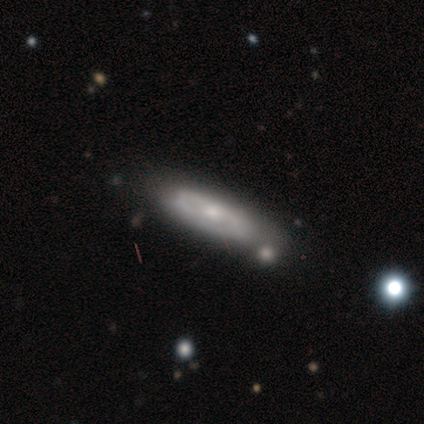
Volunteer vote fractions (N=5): Smooth or featured? featured or disk (100%)
Edge-on disk? no (60%)
Bar? no (67%)
Spiral arms? yes (67%)
Spiral winding? medium (100%)
Spiral arm count? 2 (50%, tied with can't tell)
Bulge size? small (67%)
Merging? none (100%)